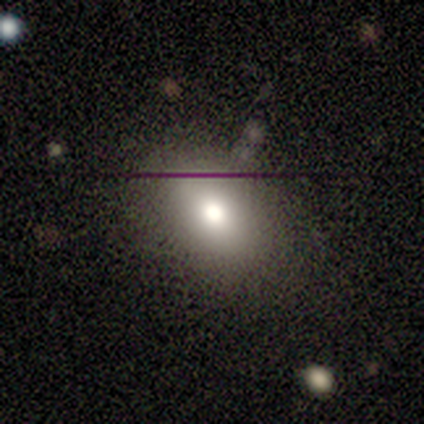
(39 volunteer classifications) Smooth or featured: smooth — 64% (featured or disk — 26%)
How rounded: in between — 80% (round — 20%)
Merging: none — 80% (minor disturbance — 14%)